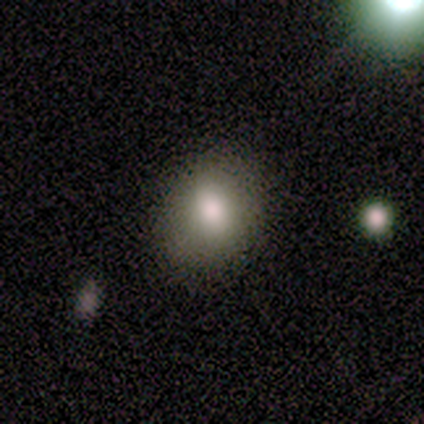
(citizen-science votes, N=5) This appears to be a smooth galaxy with no disk features (100%) that is round (60%). Merging: none (80%).